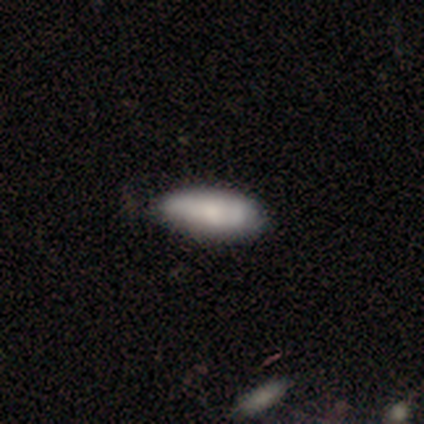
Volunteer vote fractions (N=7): Overall: smooth (71%). How rounded: in between (80%). Merging: none (67%; minor disturbance 33%).